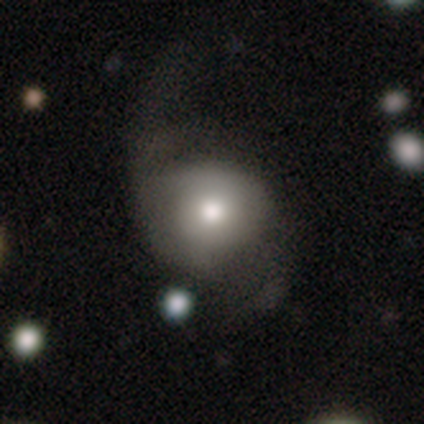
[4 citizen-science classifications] A smooth galaxy with no disk features (100%) that is round (75%).

Vote fractions:
- Smooth or featured? smooth: 100% / featured or disk: 0% / star or artifact: 0%
- How rounded? round: 75% / in between: 25% / cigar-shaped: 0%
- Merging? major disturbance: 100% / none: 0% / minor disturbance: 0% / merger: 0%